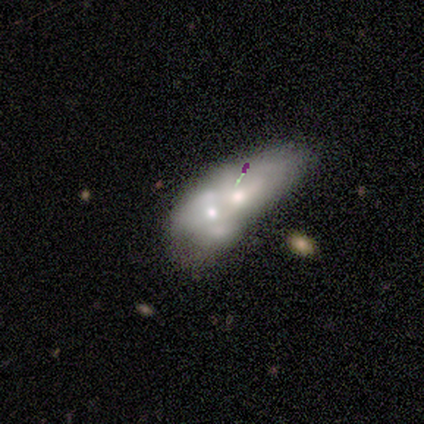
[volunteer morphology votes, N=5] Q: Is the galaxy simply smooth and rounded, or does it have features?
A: smooth — 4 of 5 (80%).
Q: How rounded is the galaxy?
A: in between — 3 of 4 (75%).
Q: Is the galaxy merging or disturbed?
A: merger — 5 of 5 (100%).